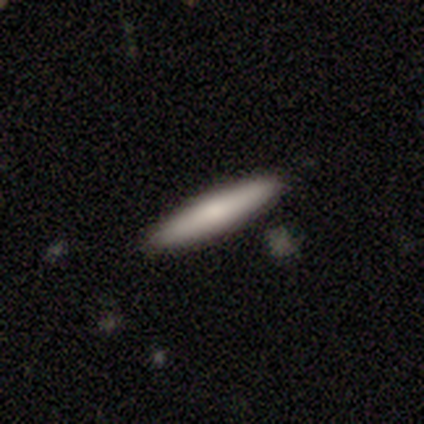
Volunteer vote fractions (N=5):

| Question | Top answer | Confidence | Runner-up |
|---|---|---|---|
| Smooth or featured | smooth | 100% | — |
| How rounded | cigar-shaped | 60% | in between (40%) |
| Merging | none | 100% | — |